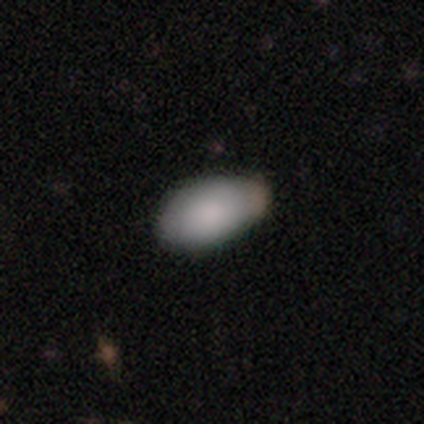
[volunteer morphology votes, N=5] Smooth or featured? 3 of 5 (60%) said smooth. How rounded? 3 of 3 (100%) said in between. Merging? 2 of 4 (50%, tied with merger) said minor disturbance.